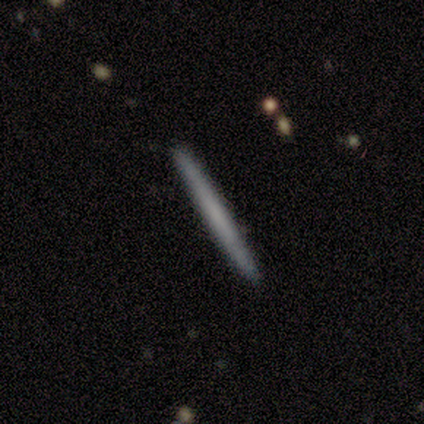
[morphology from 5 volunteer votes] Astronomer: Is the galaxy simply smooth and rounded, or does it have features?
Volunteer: featured or disk — 60% (runner-up: smooth, 40%).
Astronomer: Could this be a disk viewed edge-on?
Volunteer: yes — 100%.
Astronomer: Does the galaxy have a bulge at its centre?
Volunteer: none — 100%.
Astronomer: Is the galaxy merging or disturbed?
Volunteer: none — 100%.